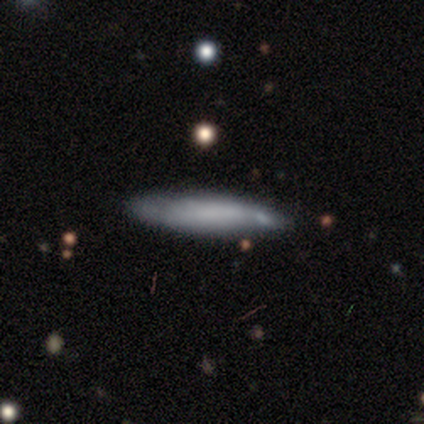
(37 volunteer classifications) Morphology: type=smooth (54%); roundness=cigar-shaped (95%); merging=none (72%).